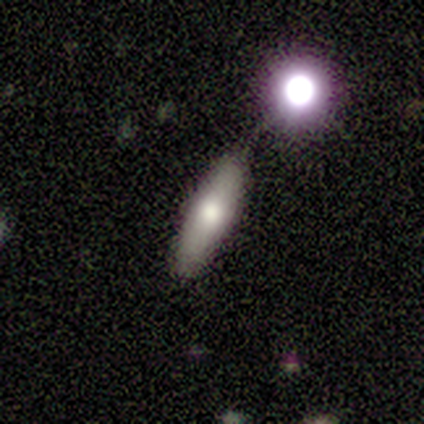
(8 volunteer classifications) Overall: smooth (75%). How rounded: cigar-shaped (67%; in between 33%). Merging: none (71%).